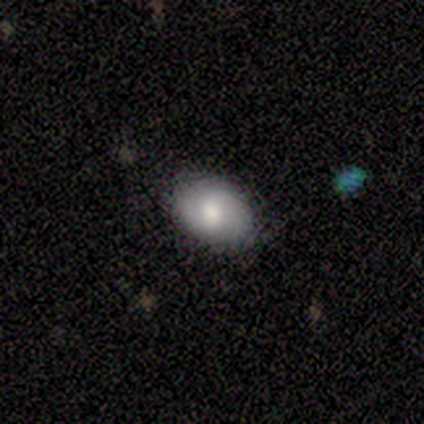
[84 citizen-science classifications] A smooth galaxy with no disk features (80%) that is in between round and cigar-shaped (78%).

Vote fractions:
- Smooth or featured? smooth: 80% / featured or disk: 15% / star or artifact: 5%
- How rounded? in between: 78% / round: 22% / cigar-shaped: 0%
- Merging? none: 84% / minor disturbance: 15% / merger: 1% / major disturbance: 0%